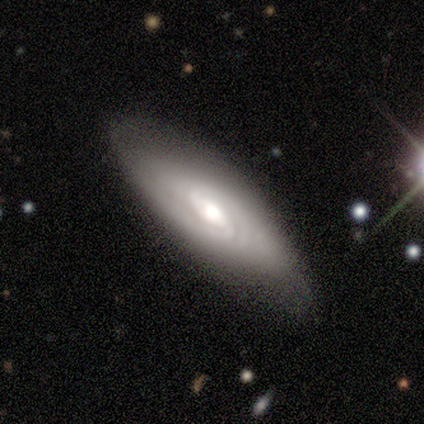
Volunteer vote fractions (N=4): Overall: featured or disk (100%). Edge-on disk: no (75%). Bar: weak (67%; no 33%). Spiral arms: yes (100%). Spiral arm count: 2 (67%; can't tell 33%). Spiral winding: tight (100%). Bulge size: moderate (67%; small 33%). Merging: none (50%, tied with minor disturbance).